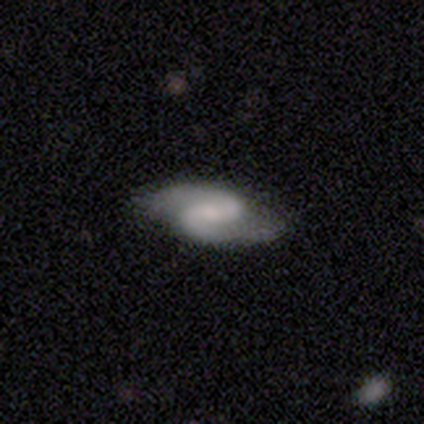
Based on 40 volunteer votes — This appears to be a featured or disk galaxy (85%) with a weak bar (44%), 2 (97%) medium (69%) spiral arms (100%) and a small central bulge (50%). Merging: none (76%).